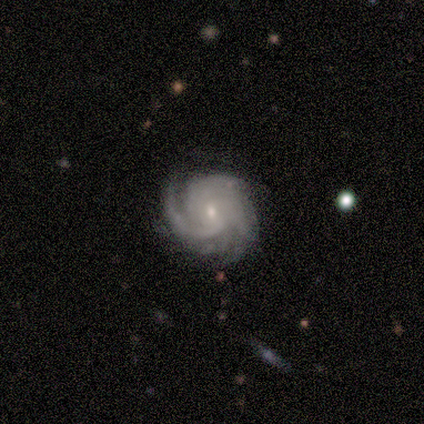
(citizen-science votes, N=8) smooth_or_featured: featured or disk (p=1.00)
disk_edge_on: no (p=1.00)
bar: no (p=0.75) [alt: weak p=0.25]
has_spiral_arms: yes (p=1.00)
spiral_winding: tight (p=0.75) [alt: medium p=0.12]
spiral_arm_count: can't tell (p=0.38) [alt: more than 4 p=0.25]
bulge_size: small (p=0.88) [alt: moderate p=0.12]
merging: none (p=0.88) [alt: minor disturbance p=0.12]